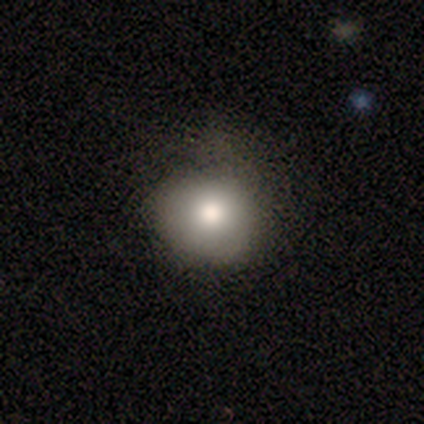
Morphology: type=smooth (60%); roundness=round (100%); merging=none (75%).